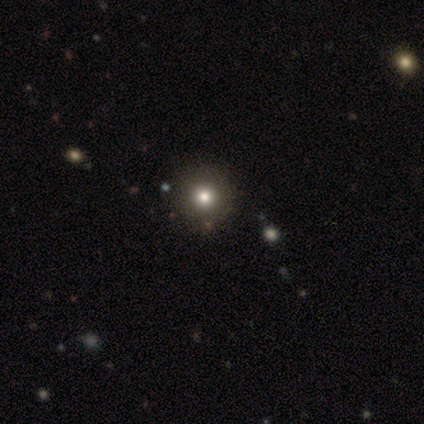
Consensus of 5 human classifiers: Smooth or featured?
  - smooth: 80% *
  - star or artifact: 20%
  - featured or disk: 0%
How rounded?
  - round: 100% *
  - in between: 0%
  - cigar-shaped: 0%
Merging?
  - none: 100% *
  - minor disturbance: 0%
  - major disturbance: 0%
  - merger: 0%